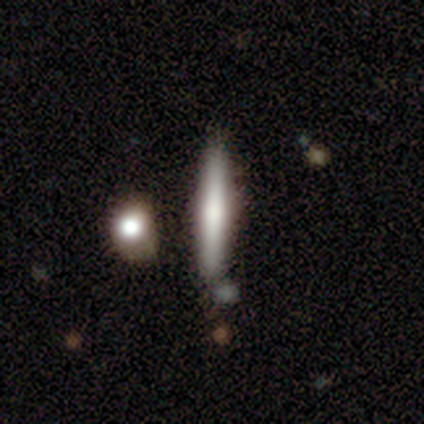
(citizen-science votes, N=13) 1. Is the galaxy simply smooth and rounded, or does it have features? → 62% smooth, 31% featured or disk, 8% star or artifact.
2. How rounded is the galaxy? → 100% cigar-shaped, 0% round, 0% in between.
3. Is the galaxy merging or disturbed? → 67% none, 17% minor disturbance, 17% merger, 0% major disturbance.